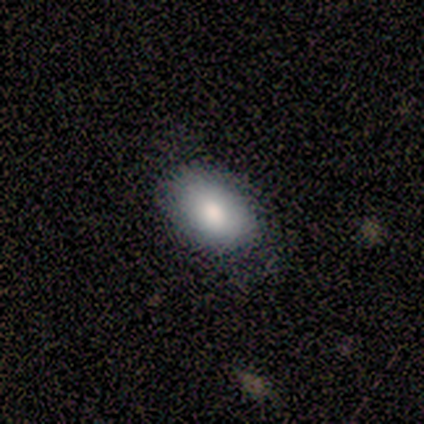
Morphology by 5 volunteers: This is clearly a smooth galaxy (100%). How rounded: clearly in between (80%). Merging: clearly none (80%).